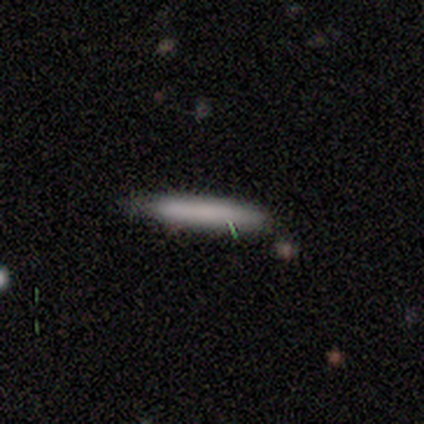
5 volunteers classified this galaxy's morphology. Smooth or featured? 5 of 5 (100%) said smooth. How rounded? 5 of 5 (100%) said cigar-shaped. Merging? 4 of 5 (80%) said none.